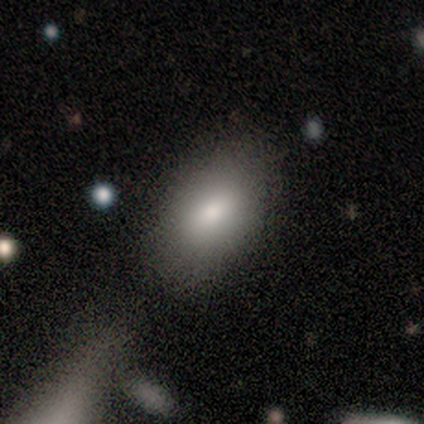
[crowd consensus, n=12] Smooth or featured? 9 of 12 (75%) said smooth. How rounded? 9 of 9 (100%) said in between. Merging? 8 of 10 (80%) said none.